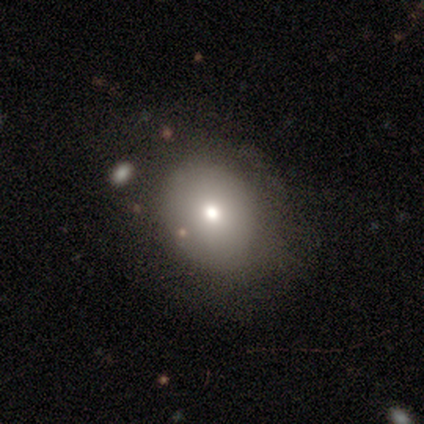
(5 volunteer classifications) Smooth or featured?
  - smooth: 80% *
  - featured or disk: 20%
  - star or artifact: 0%
How rounded?
  - round: 50% * (tied)
  - in between: 50% * (tied)
  - cigar-shaped: 0%
Merging?
  - none: 60% *
  - minor disturbance: 40%
  - major disturbance: 0%
  - merger: 0%